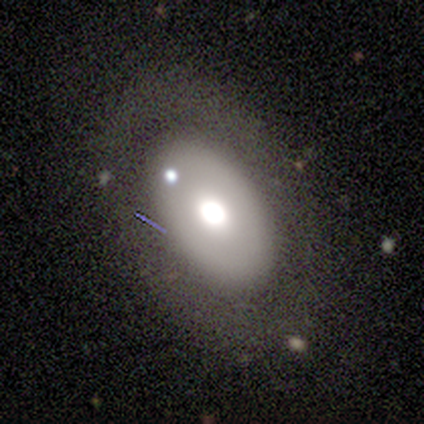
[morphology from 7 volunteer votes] smooth_or_featured: featured or disk (p=1.00)
disk_edge_on: no (p=1.00)
bar: no (p=1.00)
has_spiral_arms: no (p=1.00)
bulge_size: large (p=0.57) [alt: moderate p=0.29]
merging: none (p=1.00)